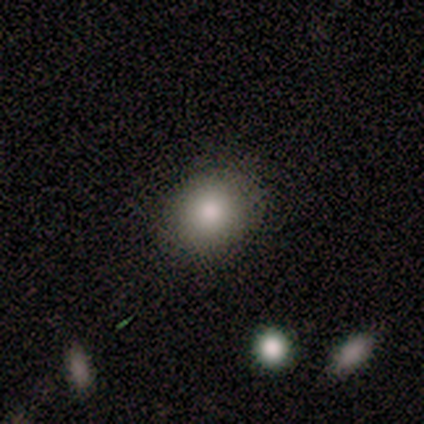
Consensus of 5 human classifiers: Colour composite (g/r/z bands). It shows a smooth galaxy with no disk features (80%) that is round (100%). Merging: none (80%).